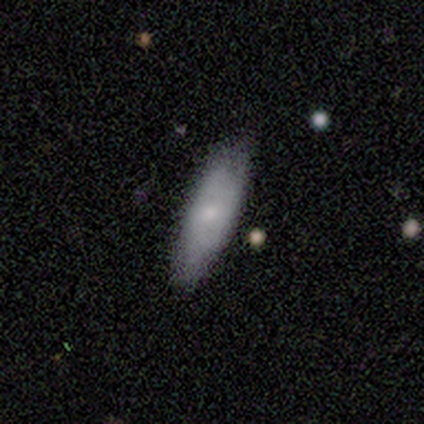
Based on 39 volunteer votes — A smooth galaxy with no disk features (64%) that is in between round and cigar-shaped (52%). Merging: none (59%).